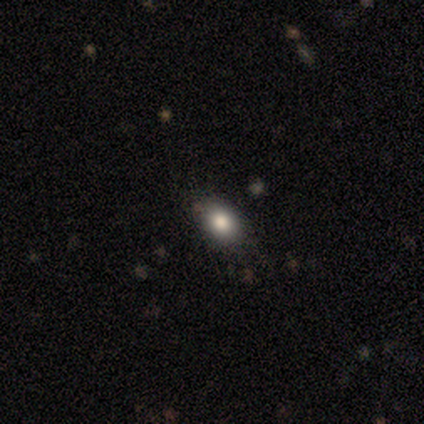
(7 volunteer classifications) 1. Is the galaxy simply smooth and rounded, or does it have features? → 86% smooth, 14% star or artifact, 0% featured or disk.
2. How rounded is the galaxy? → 83% in between, 17% round, 0% cigar-shaped.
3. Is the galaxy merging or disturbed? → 100% none, 0% minor disturbance, 0% major disturbance, 0% merger.